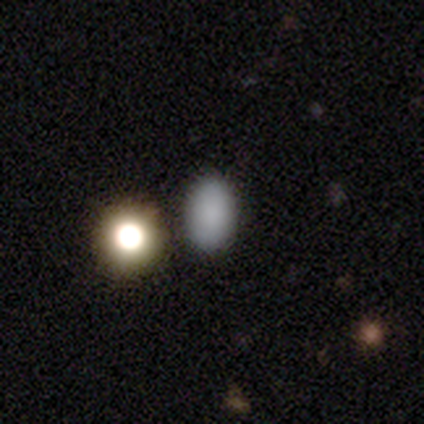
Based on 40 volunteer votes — This appears to be a smooth galaxy with no disk features (98%) that is in between round and cigar-shaped (85%). Merging: none (75%).